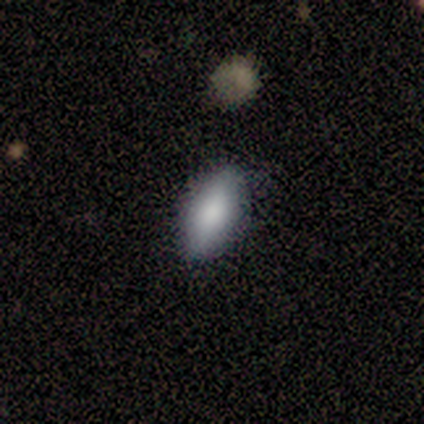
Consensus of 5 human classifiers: Q: Smooth or featured?
A: smooth (100%)
Q: How rounded?
A: in between (80%); runner-up: cigar-shaped (20%)
Q: Merging?
A: none (100%)